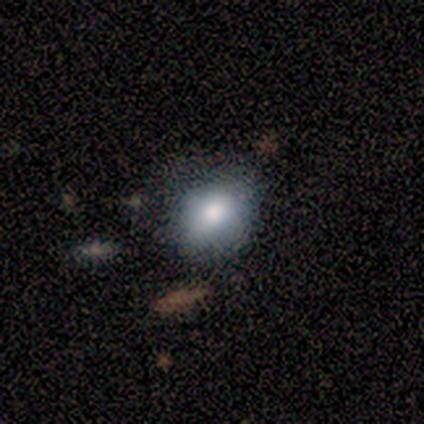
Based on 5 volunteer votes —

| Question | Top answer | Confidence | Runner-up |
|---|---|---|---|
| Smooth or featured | smooth | 100% | — |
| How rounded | round | 60% | in between (40%) |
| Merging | none | 80% | minor disturbance (20%) |